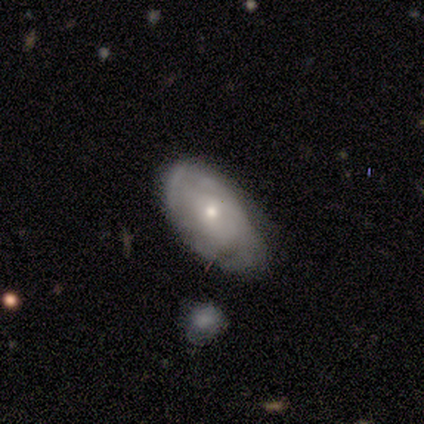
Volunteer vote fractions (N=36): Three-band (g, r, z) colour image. It shows a featured or disk galaxy (67%) with no bar (87%), tight (47%) spiral arms (83%) and a small central bulge (70%). Merging: none (54%).